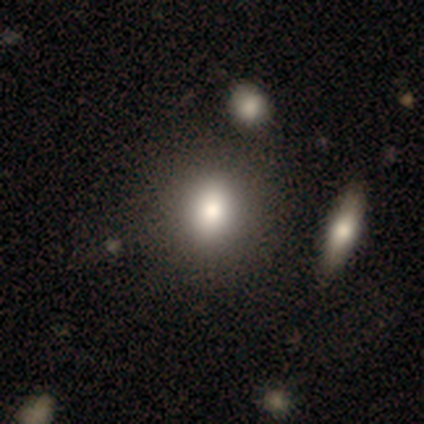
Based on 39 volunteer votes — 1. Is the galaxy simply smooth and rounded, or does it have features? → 87% smooth, 8% featured or disk, 5% star or artifact.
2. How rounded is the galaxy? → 53% round, 44% in between, 3% cigar-shaped.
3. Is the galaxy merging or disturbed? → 54% none, 14% minor disturbance, 8% merger, 0% major disturbance.